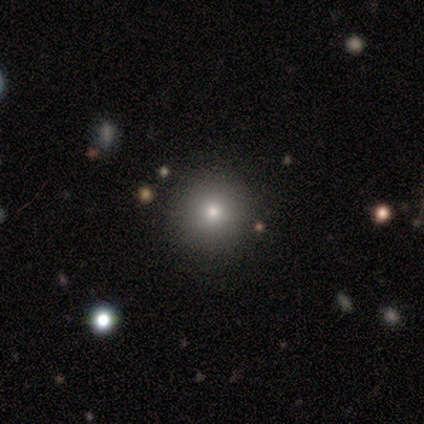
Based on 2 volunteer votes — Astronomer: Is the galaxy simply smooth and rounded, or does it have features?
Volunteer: smooth — 50%, tied with featured or disk at 50%.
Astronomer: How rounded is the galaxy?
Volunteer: round — 100%.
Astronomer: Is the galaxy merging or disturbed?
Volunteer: none — 100%.